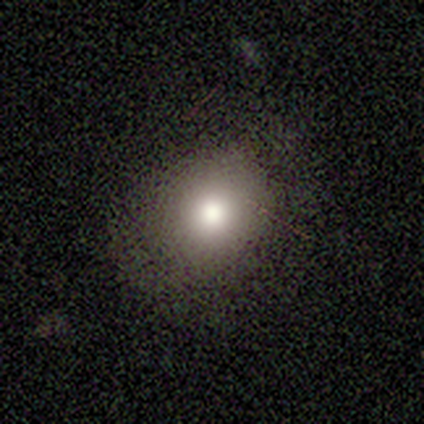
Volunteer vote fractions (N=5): Smooth or featured? 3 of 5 (60%) said smooth. How rounded? 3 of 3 (100%) said round. Merging? 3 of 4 (75%) said none.